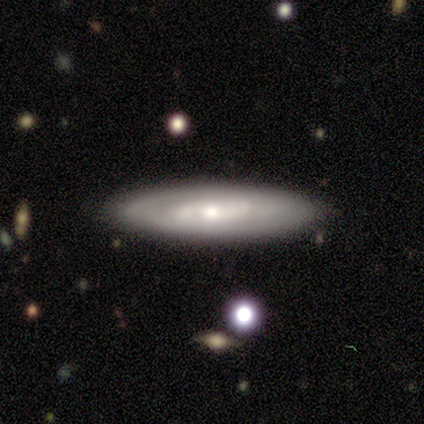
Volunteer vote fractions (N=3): A smooth galaxy with no disk features (33%, tied with featured or disk and star or artifact) that is in between round and cigar-shaped (100%). Merging: minor disturbance (50%, tied with major disturbance).